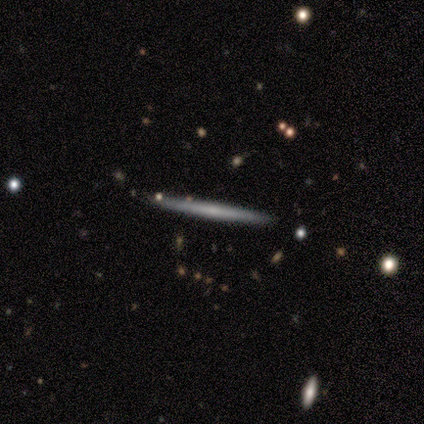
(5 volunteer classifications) Smooth or featured: featured or disk — 80% (smooth — 20%)
Edge-on disk: yes — 100%
Edge-on bulge: none — 75% (rounded — 25%)
Merging: none — 100%